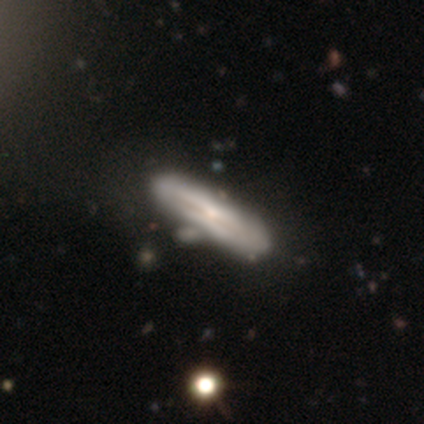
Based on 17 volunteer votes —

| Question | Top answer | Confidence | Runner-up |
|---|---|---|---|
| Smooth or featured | featured or disk | 53% | smooth (41%) |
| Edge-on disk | yes | 78% | no (22%) |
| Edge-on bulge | rounded | 57% | none (29%) |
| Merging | none | 56% | minor disturbance (38%) |